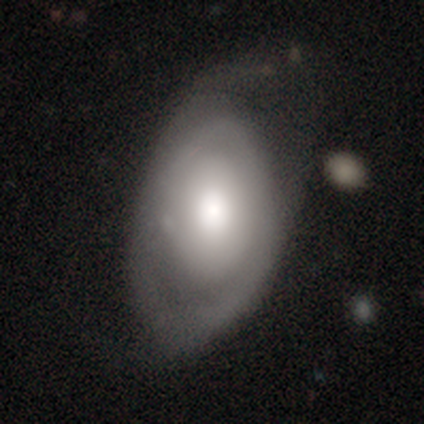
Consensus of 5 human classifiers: A featured or disk galaxy (100%) with no bar (80%), 1 (50%, tied with can't tell) tight (50%) spiral arms (80%) and a moderate central bulge (60%).

Vote fractions:
- Smooth or featured? featured or disk: 100% / smooth: 0% / star or artifact: 0%
- Edge-on disk? no: 100% / yes: 0%
- Bar? no: 80% / weak: 20% / strong: 0%
- Spiral arms? yes: 80% / no: 20%
- Spiral winding? tight: 50% / medium: 25% / loose: 25%
- Spiral arm count? 1: 50% (tied) / can't tell: 50% (tied) / 2: 0% / 3: 0% / 4: 0% / more than 4: 0%
- Bulge size? moderate: 60% / large: 40% / dominant: 0% / small: 0% / none: 0%
- Merging? major disturbance: 60% / minor disturbance: 40% / none: 0% / merger: 0%